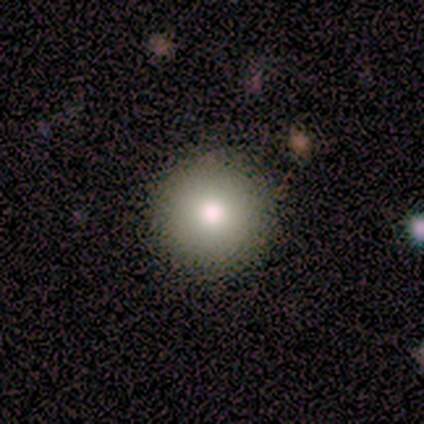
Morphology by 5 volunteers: This is likely a smooth galaxy (60%). How rounded: clearly round (100%). Merging: clearly none (100%).